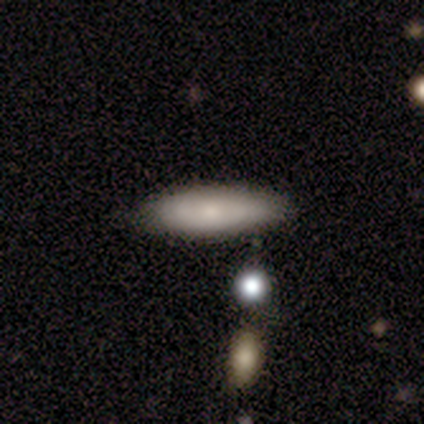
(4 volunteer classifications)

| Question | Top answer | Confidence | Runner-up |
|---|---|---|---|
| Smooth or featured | smooth | 50% | tied: featured or disk (50%) |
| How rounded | in between | 50% | tied: cigar-shaped (50%) |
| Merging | none | 100% | — |